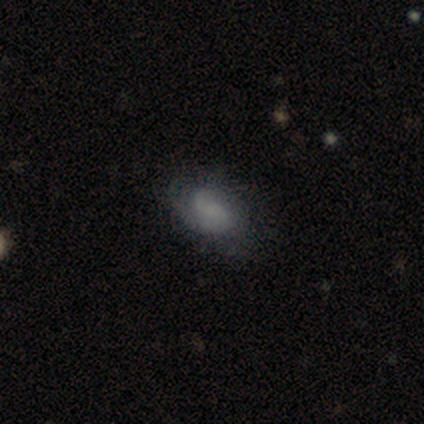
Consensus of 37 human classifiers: Overall: smooth (51%; featured or disk 46%). How rounded: in between (100%). Merging: none (64%; minor disturbance 28%).